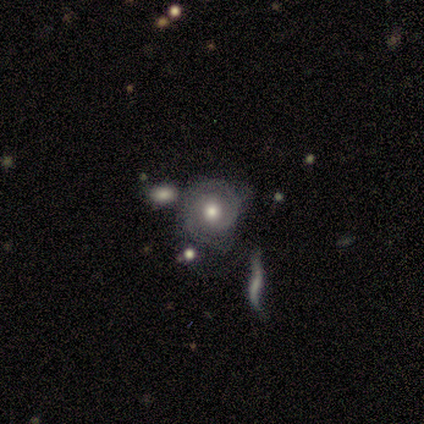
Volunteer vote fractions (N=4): Overall: featured or disk (100%). Edge-on disk: no (100%). Bar: no (100%). Spiral arms: yes (75%). Spiral arm count: 2 (67%; can't tell 33%). Spiral winding: tight (100%). Bulge size: moderate (100%). Merging: minor disturbance (50%; none 25%).